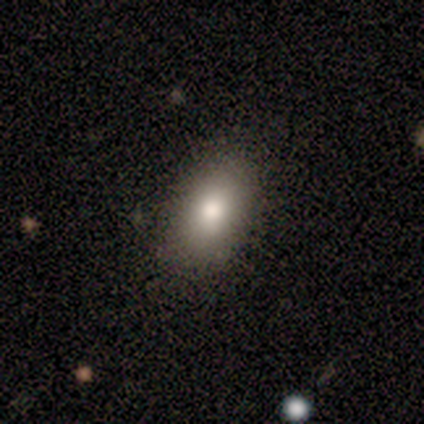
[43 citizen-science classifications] smooth 79%, star or artifact 14%, featured or disk 7%. Down the decision tree: how rounded — in between (82%); merging — none (89%).